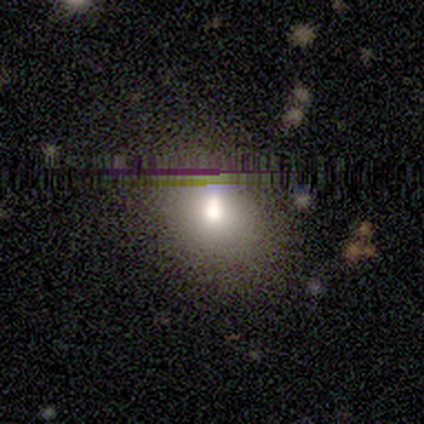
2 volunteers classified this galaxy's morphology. This is possibly a smooth galaxy (50%, tied with featured or disk). How rounded: clearly round (100%). Merging: clearly none (100%).